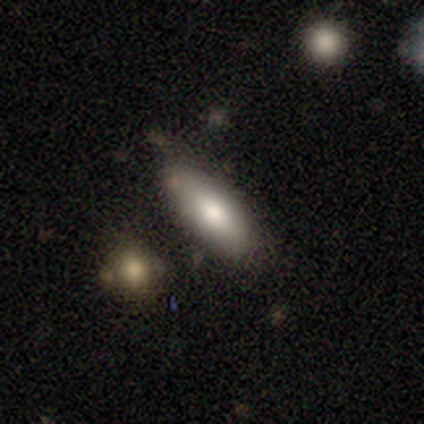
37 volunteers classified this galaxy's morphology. smooth-or-featured: smooth: 84% | featured or disk: 11% | star or artifact: 5%
  how-rounded: in between: 77% | cigar-shaped: 23% | round: 0%
  merging: none: 74% | minor disturbance: 17% | merger: 6% | major disturbance: 3%